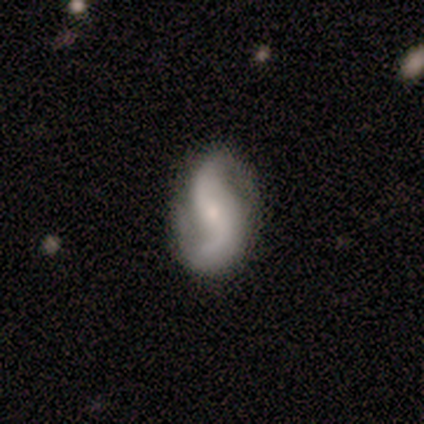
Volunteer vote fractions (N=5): Overall: featured or disk (100%). Edge-on disk: no (100%). Bar: weak (80%). Spiral arms: yes (80%). Spiral arm count: 2 (100%). Spiral winding: loose (50%; tight 25%). Bulge size: moderate (60%; small 40%). Merging: none (100%).